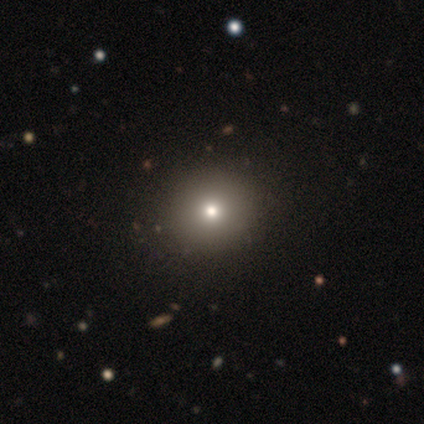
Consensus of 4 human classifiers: Overall: smooth (50%, tied with star or artifact). How rounded: round (100%). Merging: none (100%).